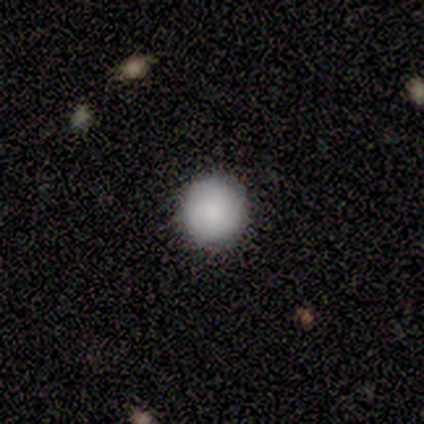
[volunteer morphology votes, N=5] Consensus on every question: smooth or featured — smooth (100%); how rounded — round (100%); merging — none (100%).